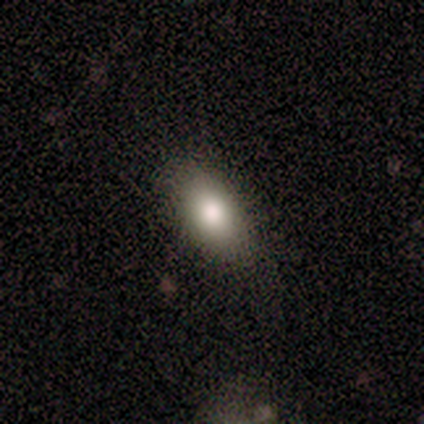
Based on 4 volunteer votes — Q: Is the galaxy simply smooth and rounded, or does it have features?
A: smooth — 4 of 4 (100%).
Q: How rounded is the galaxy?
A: in between — 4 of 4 (100%).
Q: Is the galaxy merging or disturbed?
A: none — 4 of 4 (100%).